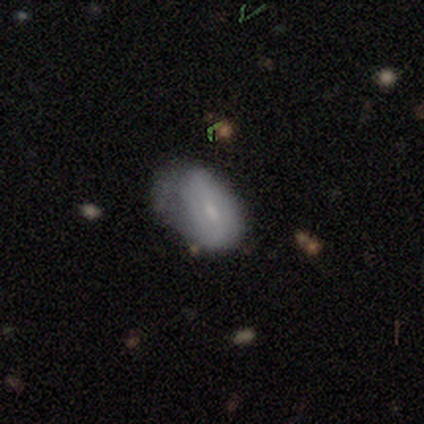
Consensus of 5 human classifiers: This is likely a featured or disk galaxy (60%). It is likely not viewed edge-on (67%). Bar: possibly strong (50%, tied with weak). Spiral arm pattern: possibly yes (50%, tied with no). Spiral arm count: clearly can't tell (100%). Spiral winding: clearly medium (100%). Central bulge: possibly moderate (50%, tied with small). Merging: clearly none (80%).